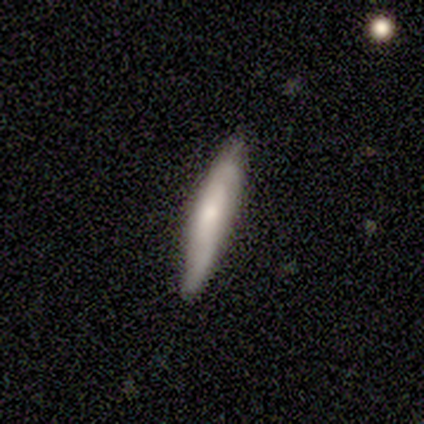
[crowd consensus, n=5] This appears to be a featured or disk galaxy (60%) with a weak bar (50%, tied with no), 2 (100%) tight (100%) spiral arms (100%) and a small central bulge (100%). Merging: none (100%).